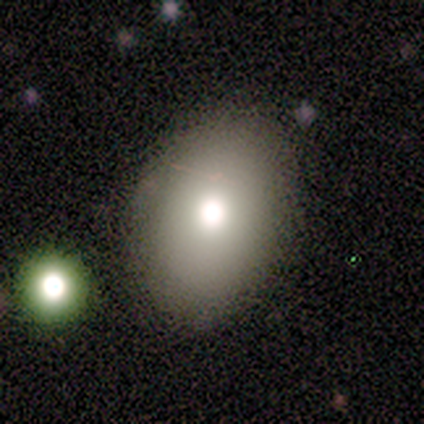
This is likely a smooth galaxy (73%). How rounded: clearly in between (100%). Merging: clearly none (91%).